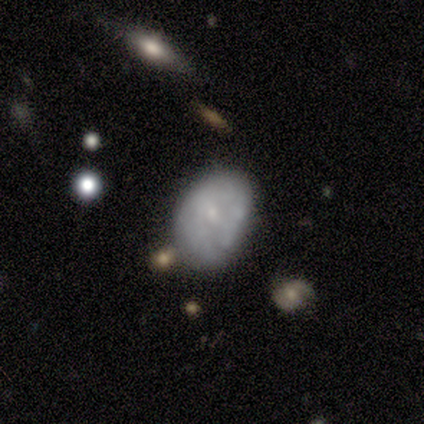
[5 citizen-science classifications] Morphology: type=featured or disk (60%); edge-on=no (100%); bar=no (67%); spiral arms=no (67%); bulge=moderate (33%, tied with small and none); merging=none (75%).